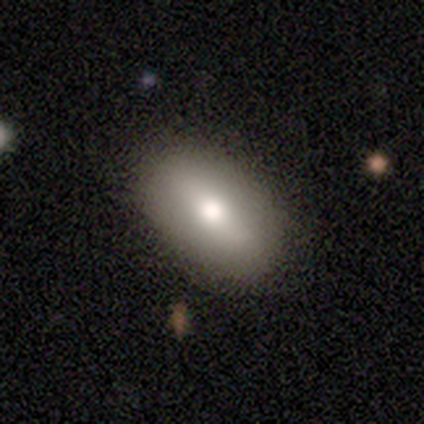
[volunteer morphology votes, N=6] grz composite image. It shows a smooth galaxy with no disk features (83%) that is in between round and cigar-shaped (100%). Merging: none (80%).